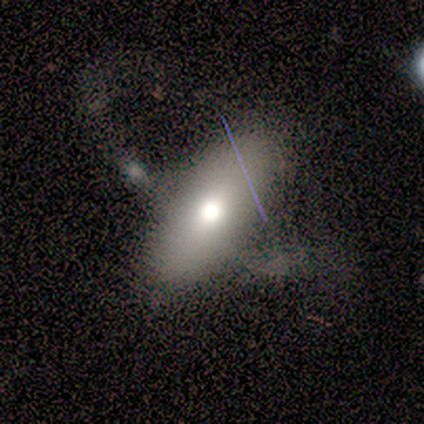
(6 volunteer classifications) A smooth galaxy with no disk features (100%) that is in between round and cigar-shaped (100%). Merging: minor disturbance (33%, tied with merger).